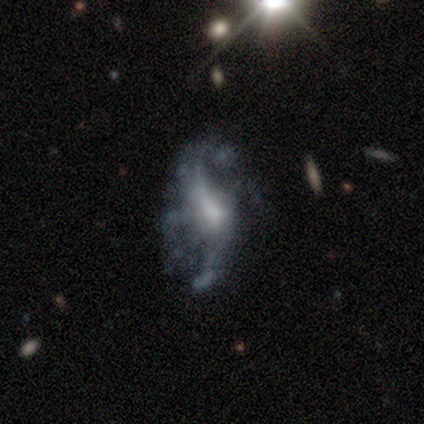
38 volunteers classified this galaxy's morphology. smooth_or_featured: featured or disk (p=0.79) [alt: smooth p=0.11]
disk_edge_on: no (p=0.93) [alt: yes p=0.07]
bar: no (p=0.61) [alt: weak p=0.32]
has_spiral_arms: yes (p=0.71) [alt: no p=0.29]
spiral_winding: loose (p=0.90) [alt: medium p=0.10]
spiral_arm_count: 2 (p=0.75) [alt: can't tell p=0.15]
bulge_size: moderate (p=0.36) [alt: small p=0.25]
merging: major disturbance (p=0.41) [alt: none p=0.35]